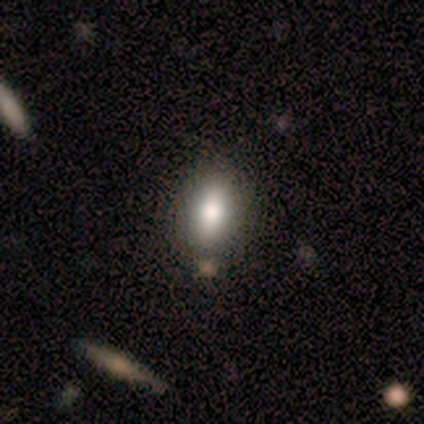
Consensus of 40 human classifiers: smooth_or_featured: smooth (p=0.75) [alt: featured or disk p=0.12]
how_rounded: in between (p=0.80) [alt: cigar-shaped p=0.13]
merging: none (p=0.51) [alt: merger p=0.06]